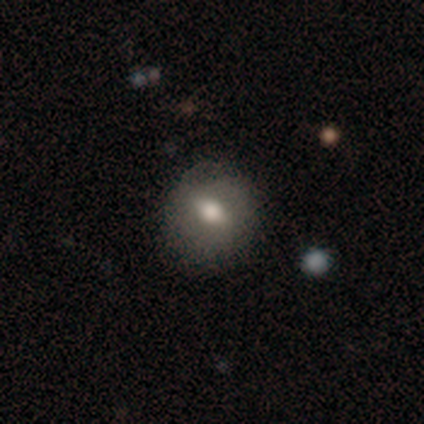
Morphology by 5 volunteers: Smooth or featured? smooth (60%)
How rounded? round (100%)
Merging? none (100%)